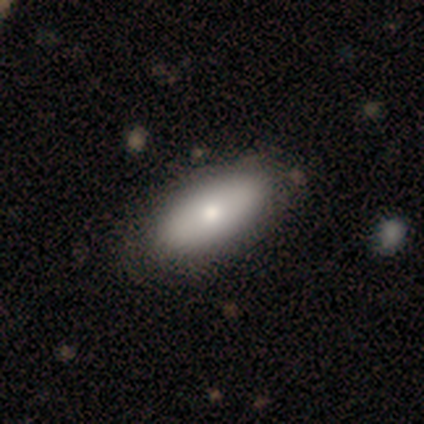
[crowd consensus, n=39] smooth 82%, featured or disk 13%, star or artifact 5%. Down the decision tree: how rounded — in between (94%); merging — none (65%).